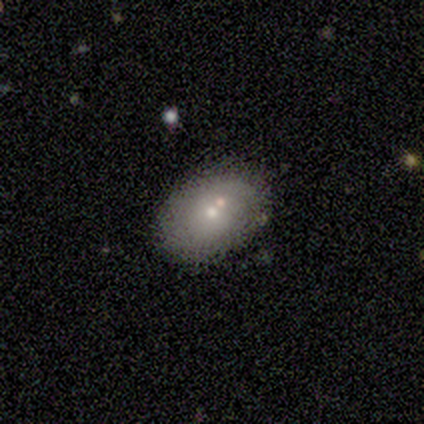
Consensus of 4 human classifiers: Smooth or featured: smooth — 100%
How rounded: in between — 75% (round — 25%)
Merging: none — 75% (minor disturbance — 25%)